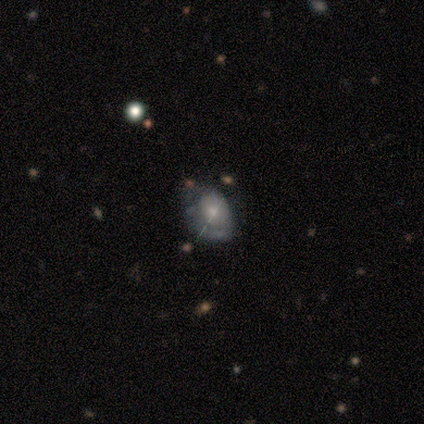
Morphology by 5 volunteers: featured or disk 60%, smooth 20%, star or artifact 20%. Down the decision tree: edge-on disk — no (100%); bar — no (100%); spiral arms — no (67%); bulge size — moderate (67%); merging — minor disturbance (75%).